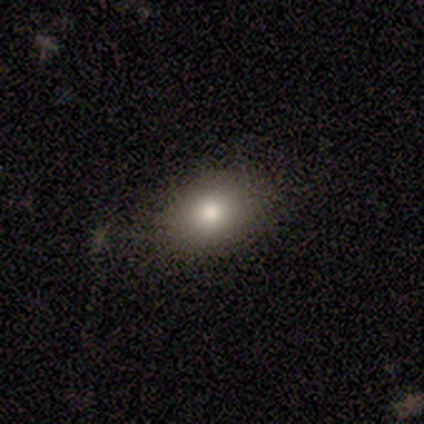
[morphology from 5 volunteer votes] A smooth galaxy with no disk features (40%, tied with star or artifact) that is in between round and cigar-shaped (100%).

Vote fractions:
- Smooth or featured? smooth: 40% (tied) / star or artifact: 40% (tied) / featured or disk: 20%
- How rounded? in between: 100% / round: 0% / cigar-shaped: 0%
- Merging? none: 100% / minor disturbance: 0% / major disturbance: 0% / merger: 0%